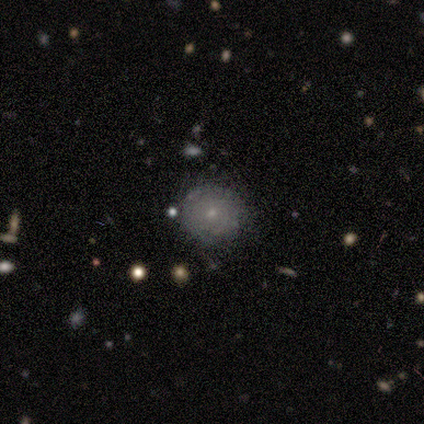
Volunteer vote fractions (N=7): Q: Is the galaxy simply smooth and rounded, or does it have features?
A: smooth — 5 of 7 (71%).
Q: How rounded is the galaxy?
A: round — 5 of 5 (100%).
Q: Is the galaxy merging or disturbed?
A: none — 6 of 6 (100%).